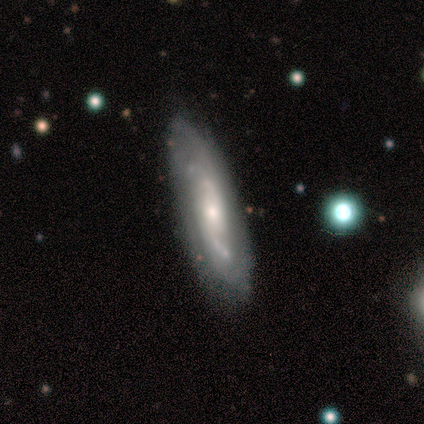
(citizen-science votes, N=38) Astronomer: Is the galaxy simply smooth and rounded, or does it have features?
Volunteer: featured or disk — 58% (runner-up: smooth, 42%).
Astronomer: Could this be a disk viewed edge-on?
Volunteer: no — 68%.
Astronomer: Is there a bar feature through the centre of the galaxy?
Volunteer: no — 87%.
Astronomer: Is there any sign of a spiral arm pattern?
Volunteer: yes — 87%.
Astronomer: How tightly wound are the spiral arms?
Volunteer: tight — 54% (runner-up: medium, 31%).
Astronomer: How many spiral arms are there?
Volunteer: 2 — 38%, tied with can't tell at 38%.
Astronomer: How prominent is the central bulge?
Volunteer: small — 53% (runner-up: moderate, 33%).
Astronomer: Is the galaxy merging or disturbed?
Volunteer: none — 76%.